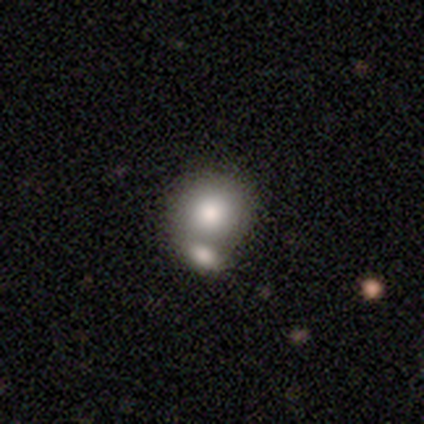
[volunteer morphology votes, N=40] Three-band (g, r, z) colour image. It shows a smooth galaxy with no disk features (85%) that is round (79%). Merging: merger (53%).